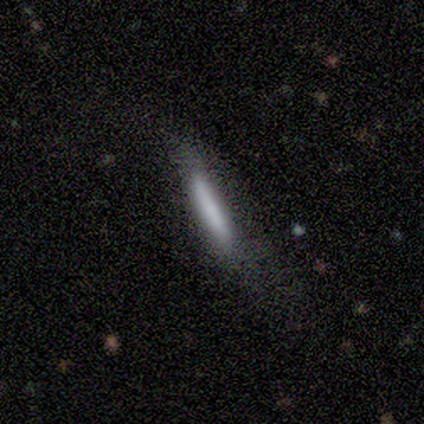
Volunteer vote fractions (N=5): Volunteers were most divided on "edge-on bulge" (3-way tie): boxy: 33%, none: 33%, rounded: 33%; "merging" (2-way tie): none: 40%, major disturbance: 40%, minor disturbance: 20%, merger: 0%. More confident: edge-on disk — yes (100%); smooth or featured — featured or disk (60%).